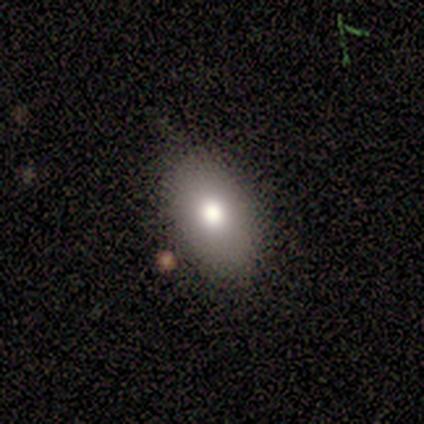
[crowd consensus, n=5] smooth 80%, featured or disk 20%, star or artifact 0%. Down the decision tree: how rounded — in between (100%); merging — none (80%).